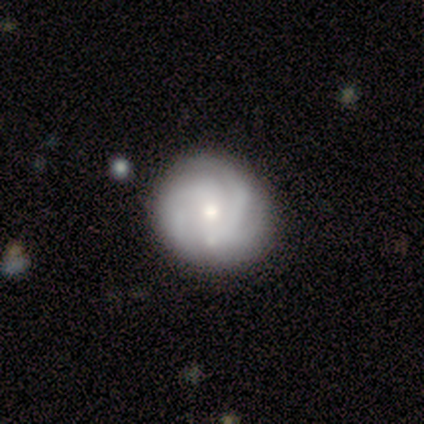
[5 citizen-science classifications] smooth-or-featured: featured or disk: 80% | smooth: 20% | star or artifact: 0%
  disk-edge-on: no: 100% | yes: 0%
    bar: weak: 50% (tied) | no: 50% (tied) | strong: 0%
    has-spiral-arms: yes: 50% (tied) | no: 50% (tied)
      spiral-winding: medium: 100% | tight: 0% | loose: 0%
      spiral-arm-count: 2: 100% | 1: 0% | 3: 0% | 4: 0% | more than 4: 0% | can't tell: 0%
    bulge-size: small: 50% | large: 25% | moderate: 25% | dominant: 0% | none: 0%
  merging: none: 80% | minor disturbance: 20% | major disturbance: 0% | merger: 0%